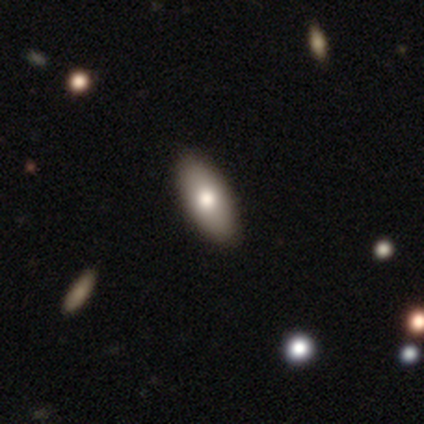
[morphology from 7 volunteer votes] A smooth galaxy with no disk features (86%) that is in between round and cigar-shaped (67%).

Vote fractions:
- Smooth or featured? smooth: 86% / featured or disk: 14% / star or artifact: 0%
- How rounded? in between: 67% / round: 17% / cigar-shaped: 17%
- Merging? none: 100% / minor disturbance: 0% / major disturbance: 0% / merger: 0%